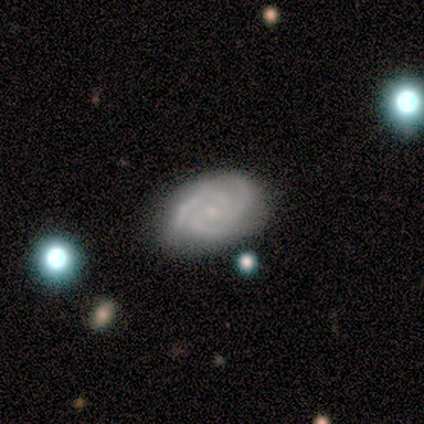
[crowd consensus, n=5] Smooth or featured? featured or disk (60%)
Edge-on disk? no (100%)
Bar? no (100%)
Spiral arms? yes (100%)
Spiral winding? tight (100%)
Spiral arm count? 3 (100%)
Bulge size? small (100%)
Merging? none (80%)